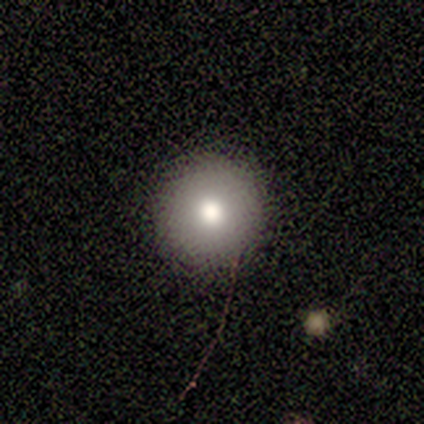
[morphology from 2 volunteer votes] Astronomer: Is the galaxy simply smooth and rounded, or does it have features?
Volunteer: smooth — 50%, tied with featured or disk at 50%.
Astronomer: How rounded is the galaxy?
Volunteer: round — 100%.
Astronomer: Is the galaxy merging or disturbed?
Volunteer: none — 100%.